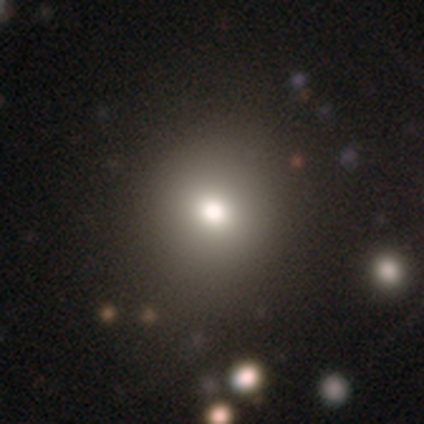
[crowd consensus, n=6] This is possibly a smooth galaxy (50%). How rounded: likely round (67%). Merging: possibly none (50%, tied with minor disturbance).